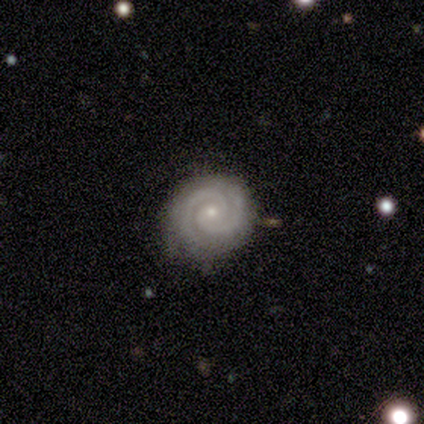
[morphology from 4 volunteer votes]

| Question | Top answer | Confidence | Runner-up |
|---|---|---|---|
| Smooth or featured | featured or disk | 75% | smooth (25%) |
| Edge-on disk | no | 100% | — |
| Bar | no | 67% | strong (33%) |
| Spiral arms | yes | 100% | — |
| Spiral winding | tight | 67% | loose (33%) |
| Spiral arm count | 2 | 100% | — |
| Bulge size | small | 100% | — |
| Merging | none | 100% | — |